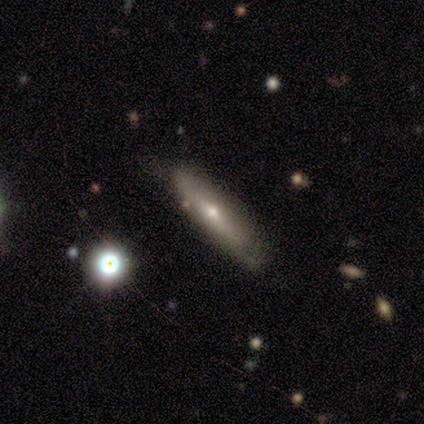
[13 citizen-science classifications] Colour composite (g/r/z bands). It shows a featured or disk galaxy (46%) viewed edge-on (67%) with a rounded central bulge (100%). Merging: none (55%).